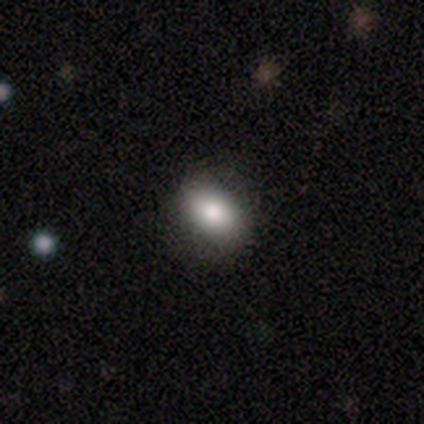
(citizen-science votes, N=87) This is clearly a smooth galaxy (82%). How rounded: clearly in between (80%). Merging: clearly none (88%).